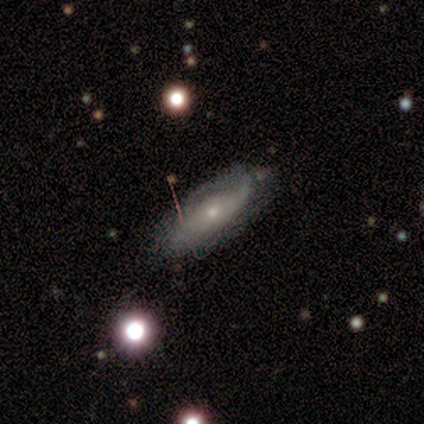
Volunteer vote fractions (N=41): Smooth or featured: featured or disk — 61% (smooth — 27%)
Edge-on disk: no — 76% (yes — 24%)
Bar: no — 84% (weak — 16%)
Spiral arms: yes — 74% (no — 26%)
Spiral winding: tight — 50% (medium — 36%)
Spiral arm count: can't tell — 71% (1 — 21%)
Bulge size: small — 74% (moderate — 26%)
Merging: none — 61% (minor disturbance — 31%)